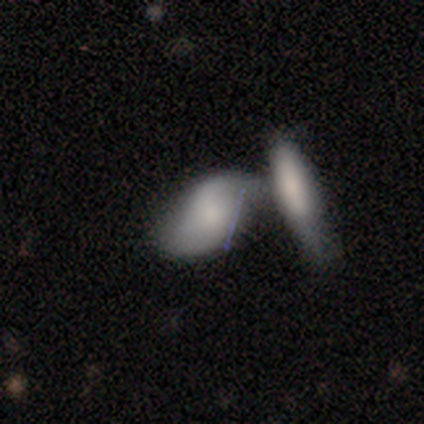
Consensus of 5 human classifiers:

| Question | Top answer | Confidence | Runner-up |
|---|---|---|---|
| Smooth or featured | smooth | 60% | featured or disk (40%) |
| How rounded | in between | 100% | — |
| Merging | merger | 80% | none (20%) |